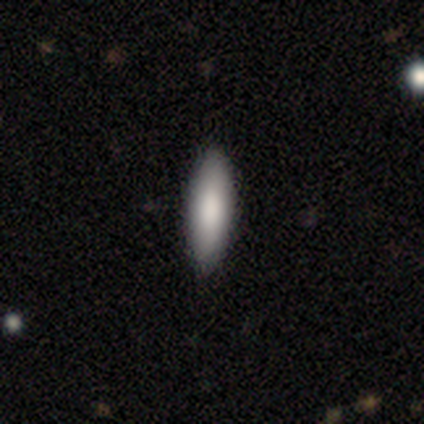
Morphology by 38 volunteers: Smooth or featured? smooth (92%)
How rounded? cigar-shaped (54%)
Merging? none (97%)